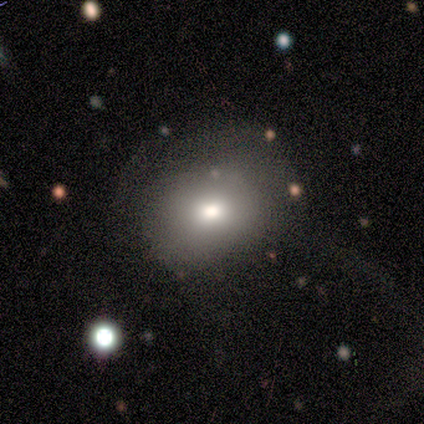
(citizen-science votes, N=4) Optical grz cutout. It shows a star or artifact, not a galaxy (75%).